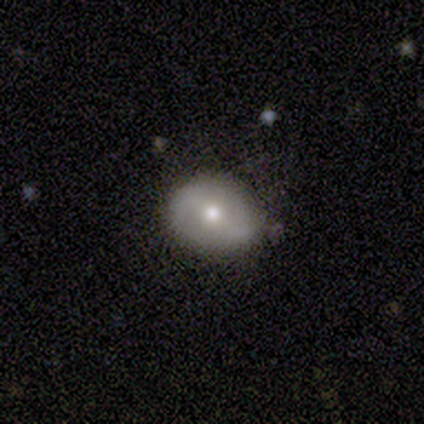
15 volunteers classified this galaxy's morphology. Overall: smooth (60%; featured or disk 27%). How rounded: round (78%). Merging: none (77%).